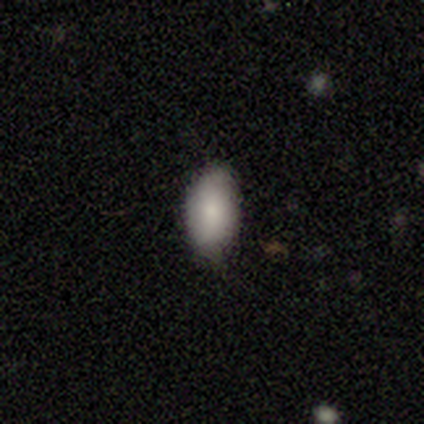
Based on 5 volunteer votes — This is marginally a smooth galaxy (40%, tied with star or artifact). How rounded: clearly in between (100%). Merging: likely none (67%).